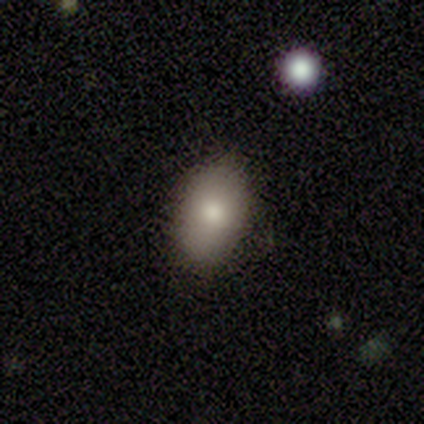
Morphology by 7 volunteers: smooth-or-featured: smooth: 86% | star or artifact: 14% | featured or disk: 0%
  how-rounded: in between: 100% | round: 0% | cigar-shaped: 0%
  merging: none: 83% | minor disturbance: 17% | major disturbance: 0% | merger: 0%